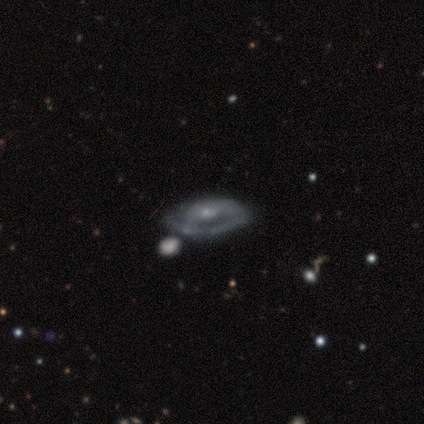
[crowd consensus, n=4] Smooth or featured? 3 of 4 (75%) said featured or disk. Edge-on disk? 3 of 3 (100%) said no. Bar? 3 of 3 (100%) said no. Spiral arms? 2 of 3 (67%) said no. Bulge size? 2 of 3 (67%) said small. Merging? 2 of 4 (50%) said minor disturbance.